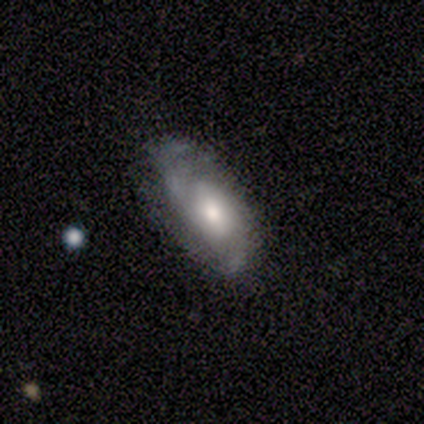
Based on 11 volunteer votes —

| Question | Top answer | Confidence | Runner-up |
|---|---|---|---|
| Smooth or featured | smooth | 55% | featured or disk (45%) |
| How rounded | in between | 83% | round (17%) |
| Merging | none | 45% | minor disturbance (36%) |